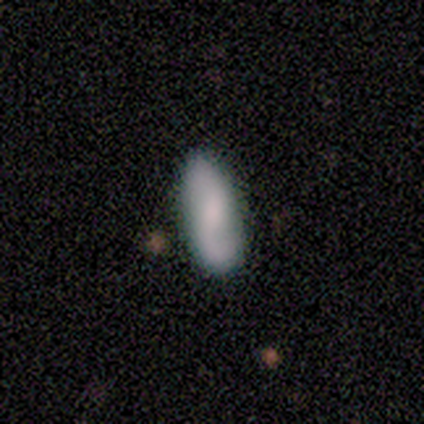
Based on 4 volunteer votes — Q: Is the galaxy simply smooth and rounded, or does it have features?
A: featured or disk — 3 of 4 (75%).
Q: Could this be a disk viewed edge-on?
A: no — 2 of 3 (67%).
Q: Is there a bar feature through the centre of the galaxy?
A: weak — 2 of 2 (100%).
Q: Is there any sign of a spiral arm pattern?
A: yes — 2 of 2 (100%).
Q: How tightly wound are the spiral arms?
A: loose — 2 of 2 (100%).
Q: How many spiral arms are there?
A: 2 — 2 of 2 (100%).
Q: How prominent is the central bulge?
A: moderate — 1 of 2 (50%, tied with none).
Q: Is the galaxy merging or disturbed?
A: none — 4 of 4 (100%).